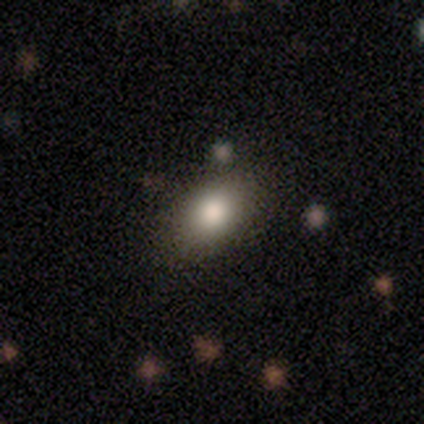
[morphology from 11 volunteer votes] Volunteers were most divided on "how rounded": in between: 91%, round: 9%, cigar-shaped: 0%. More confident: smooth or featured — smooth (100%); merging — none (91%).